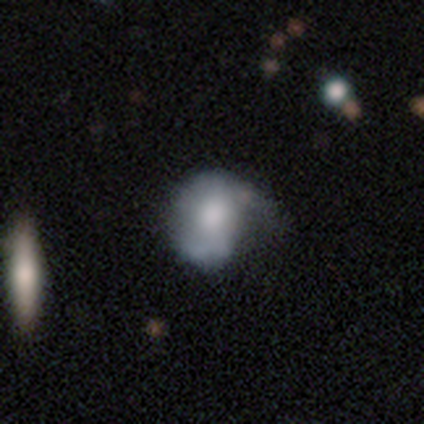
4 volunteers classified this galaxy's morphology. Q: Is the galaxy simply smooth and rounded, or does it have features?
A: smooth — 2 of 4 (50%, tied with featured or disk).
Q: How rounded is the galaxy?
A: round — 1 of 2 (50%, tied with in between).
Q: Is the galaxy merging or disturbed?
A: major disturbance — 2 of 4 (50%).